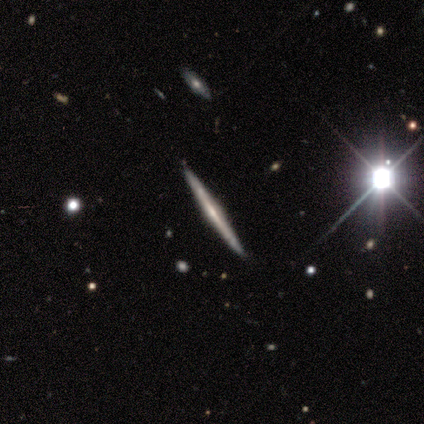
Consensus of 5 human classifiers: A featured or disk galaxy (100%) viewed edge-on (100%) with a rounded central bulge (80%). Merging: none (100%).